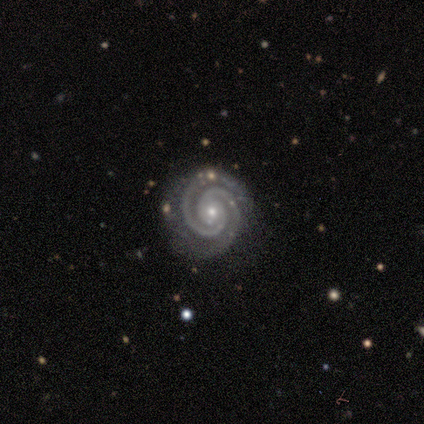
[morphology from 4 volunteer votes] This is clearly a featured or disk galaxy (100%). It is clearly not viewed edge-on (100%). Bar: clearly no (100%). Spiral arm pattern: clearly yes (100%). Spiral arm count: clearly 2 (100%). Spiral winding: clearly tight (100%). Central bulge: clearly small (100%). Merging: likely none (75%).